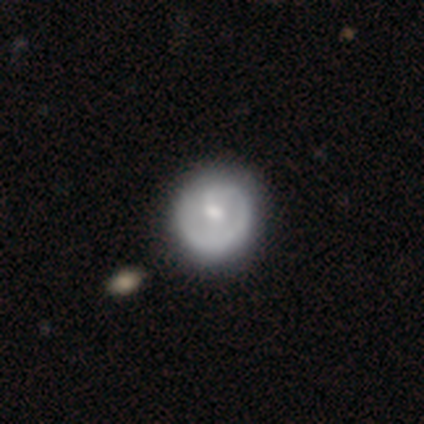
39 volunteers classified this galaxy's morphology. Volunteers were most divided on "bar": no: 52%, weak: 44%, strong: 4%. More confident: edge-on disk — no (100%); spiral arm count — 1 (79%); spiral arms — yes (76%); merging — none (69%); smooth or featured — featured or disk (64%); bulge size — moderate (56%); spiral winding — tight (53%).